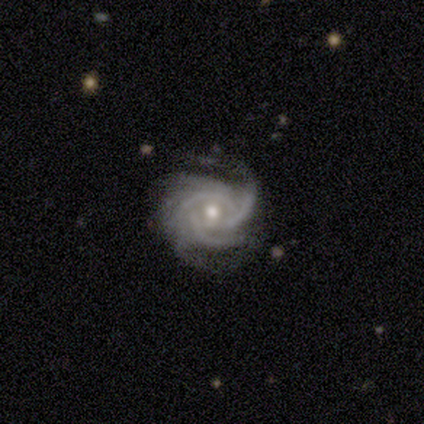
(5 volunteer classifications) A featured or disk galaxy (100%) with a weak bar (60%), 3 (60%) tight (80%) spiral arms (100%) and a moderate central bulge (80%). Merging: none (80%).